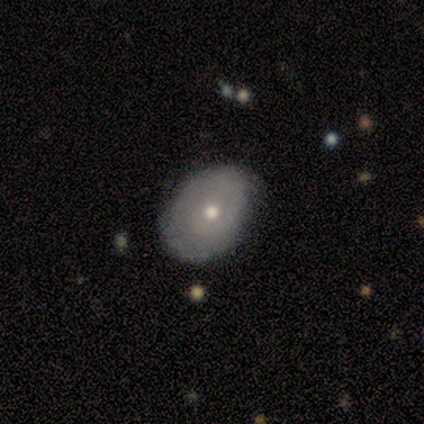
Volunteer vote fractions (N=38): This is possibly a smooth galaxy (58%). How rounded: clearly in between (82%). Merging: likely none (69%).